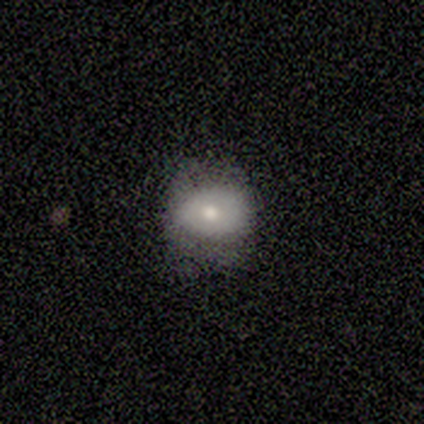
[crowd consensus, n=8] A smooth galaxy with no disk features (75%) that is round (50%, tied with in between). Merging: none (50%).